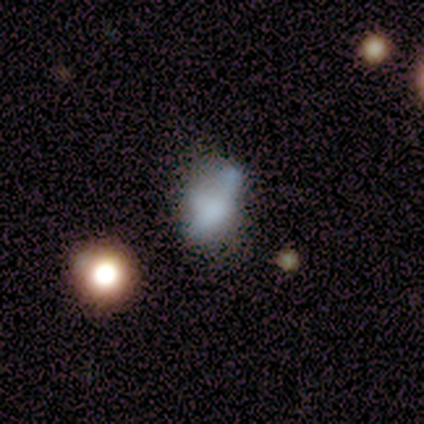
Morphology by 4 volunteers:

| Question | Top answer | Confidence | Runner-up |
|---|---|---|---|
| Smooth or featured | smooth | 50% | tied: featured or disk (50%) |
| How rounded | in between | 50% | tied: cigar-shaped (50%) |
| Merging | minor disturbance | 50% | none (25%) |